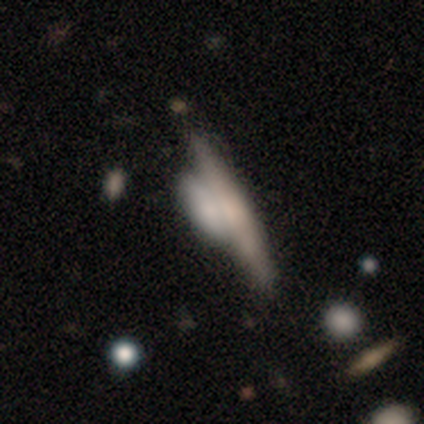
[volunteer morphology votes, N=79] type=featured or disk (56%); edge-on=yes (84%); edge-on bulge=none (51%); merging=merger (49%).